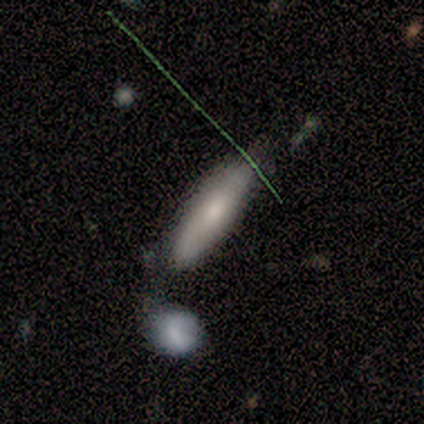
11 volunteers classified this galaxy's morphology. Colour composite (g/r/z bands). It shows a smooth galaxy with no disk features (73%) that is cigar-shaped (88%). Merging: none (73%).